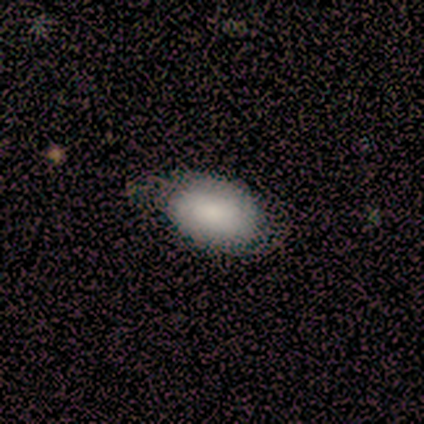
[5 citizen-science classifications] This appears to be a smooth galaxy with no disk features (80%) that is in between round and cigar-shaped (75%). Merging: none (75%).